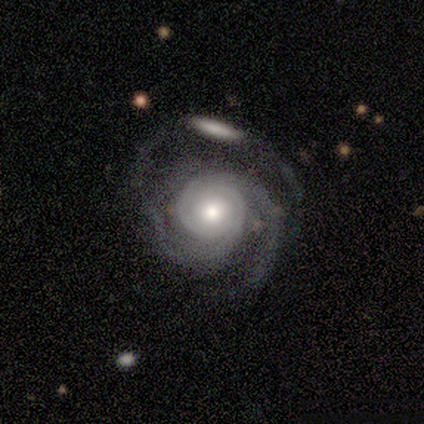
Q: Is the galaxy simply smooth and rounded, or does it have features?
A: featured or disk — 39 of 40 (98%).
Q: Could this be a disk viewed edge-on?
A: no — 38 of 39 (97%).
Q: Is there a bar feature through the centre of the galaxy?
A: no — 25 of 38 (66%).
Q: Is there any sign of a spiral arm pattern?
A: yes — 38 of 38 (100%).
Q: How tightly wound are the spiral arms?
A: tight — 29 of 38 (76%).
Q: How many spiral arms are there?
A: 2 — 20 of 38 (53%).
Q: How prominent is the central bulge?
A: moderate — 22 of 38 (58%).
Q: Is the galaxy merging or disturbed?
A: none — 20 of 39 (51%).